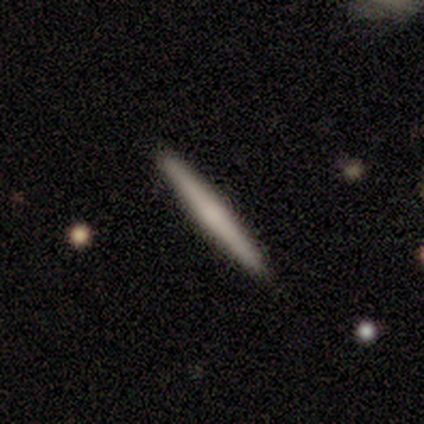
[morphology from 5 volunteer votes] Smooth or featured?
  - smooth: 60% *
  - featured or disk: 40%
  - star or artifact: 0%
How rounded?
  - cigar-shaped: 100% *
  - round: 0%
  - in between: 0%
Merging?
  - none: 80% *
  - minor disturbance: 20%
  - major disturbance: 0%
  - merger: 0%